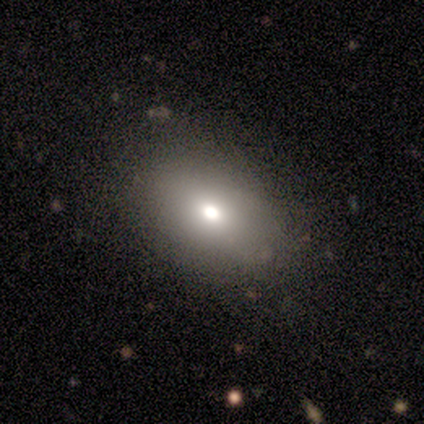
This is likely a smooth galaxy (65%). How rounded: clearly in between (85%). Merging: clearly none (86%).